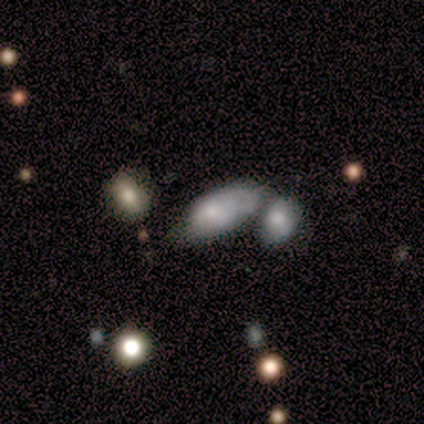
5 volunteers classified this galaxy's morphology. A smooth galaxy with no disk features (100%) that is in between round and cigar-shaped (100%).

Vote fractions:
- Smooth or featured? smooth: 100% / featured or disk: 0% / star or artifact: 0%
- How rounded? in between: 100% / round: 0% / cigar-shaped: 0%
- Merging? minor disturbance: 40% (tied) / merger: 40% (tied) / none: 20% / major disturbance: 0%